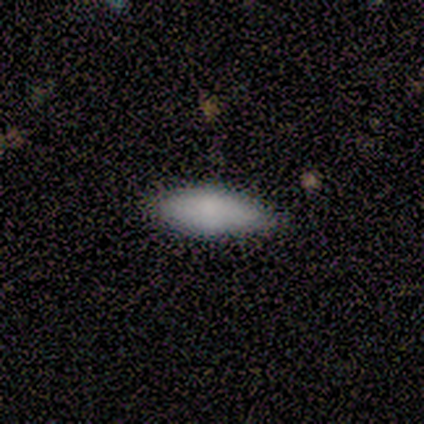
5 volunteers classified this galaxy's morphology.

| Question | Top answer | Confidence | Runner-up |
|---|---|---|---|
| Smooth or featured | smooth | 80% | star or artifact (20%) |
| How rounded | in between | 50% | tied: cigar-shaped (50%) |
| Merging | none | 100% | — |